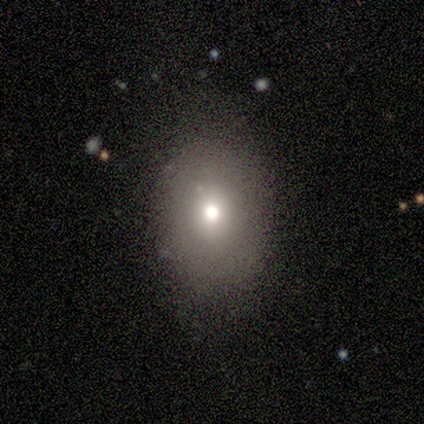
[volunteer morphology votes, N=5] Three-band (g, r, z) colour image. It shows a smooth galaxy with no disk features (40%, tied with star or artifact) that is round (50%, tied with in between). Merging: none (67%).